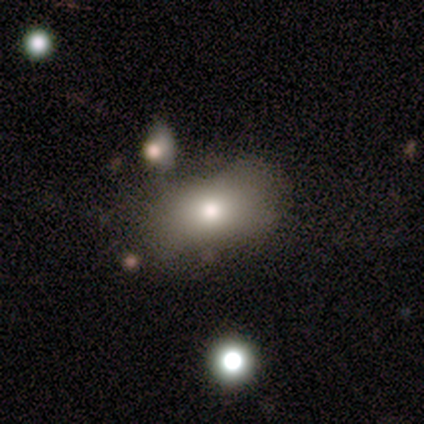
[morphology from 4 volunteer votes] This is clearly a smooth galaxy (100%). How rounded: likely in between (75%). Merging: clearly none (100%).